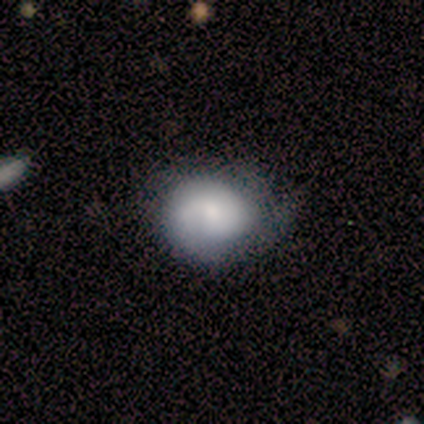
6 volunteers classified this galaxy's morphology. Overall: featured or disk (83%). Edge-on disk: no (100%). Bar: no (100%). Spiral arms: yes (100%). Spiral arm count: 2 (40%; 1 20%). Spiral winding: tight (40%, tied with medium). Bulge size: moderate (60%; small 20%). Merging: none (67%; minor disturbance 33%).